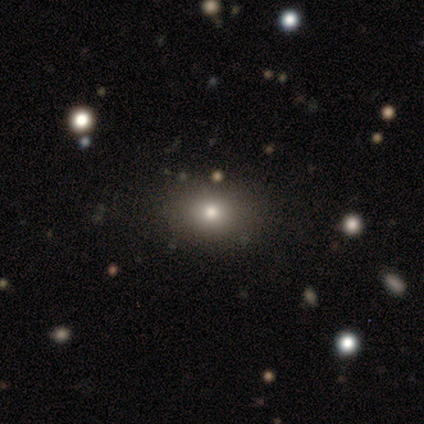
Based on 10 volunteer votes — This appears to be a smooth galaxy with no disk features (60%) that is round (50%, tied with in between). Merging: none (100%).